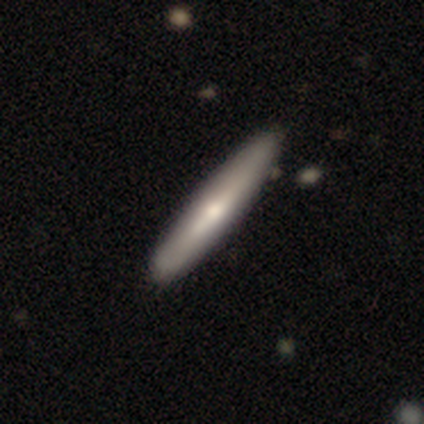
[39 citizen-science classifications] Smooth or featured? 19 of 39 (49%, tied with featured or disk) said smooth. How rounded? 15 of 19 (79%) said cigar-shaped. Merging? 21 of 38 (55%) said none.